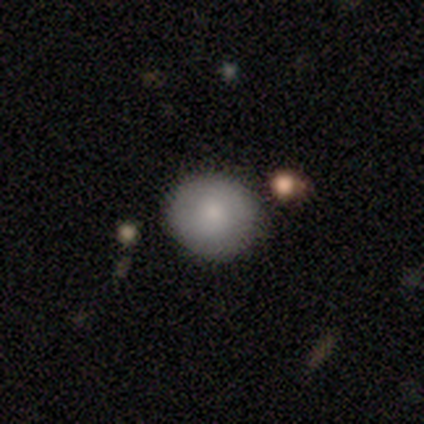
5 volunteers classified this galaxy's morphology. smooth 80%, featured or disk 20%, star or artifact 0%. Down the decision tree: how rounded — round (100%); merging — none (60%).